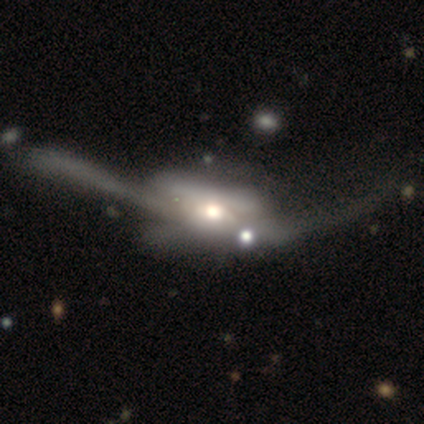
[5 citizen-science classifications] Overall: featured or disk (100%). Edge-on disk: no (100%). Bar: no (80%). Spiral arms: no (100%). Bulge size: large (60%; moderate 40%). Merging: major disturbance (80%).